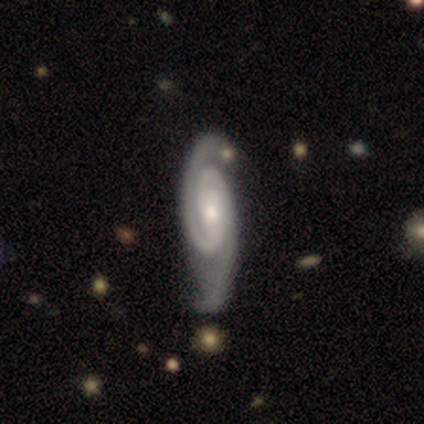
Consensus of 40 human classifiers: Smooth or featured? featured or disk (98%)
Edge-on disk? no (92%)
Bar? no (44%)
Spiral arms? yes (97%)
Spiral winding? tight (49%)
Spiral arm count? 2 (97%)
Bulge size? moderate (50%)
Merging? none (25%)